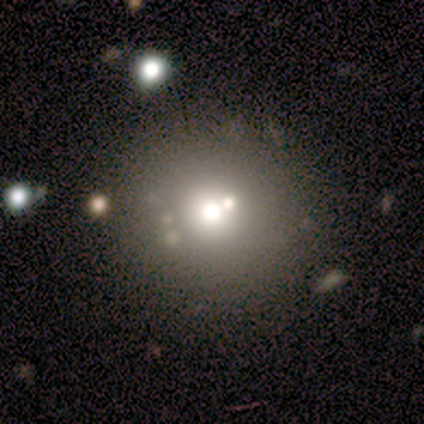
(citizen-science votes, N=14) smooth_or_featured: star or artifact (p=0.43) [alt: smooth p=0.29]